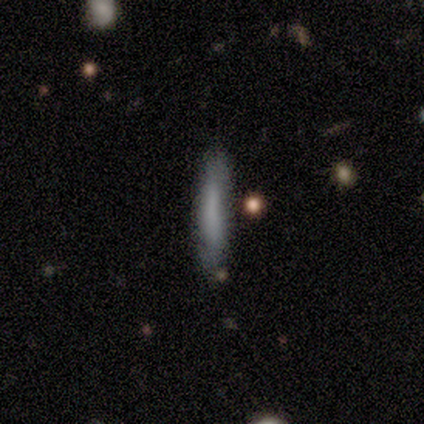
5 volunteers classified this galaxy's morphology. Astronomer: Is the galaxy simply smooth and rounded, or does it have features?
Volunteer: smooth — 80%.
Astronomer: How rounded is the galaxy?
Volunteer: cigar-shaped — 100%.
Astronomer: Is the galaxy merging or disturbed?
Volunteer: none — 80%.